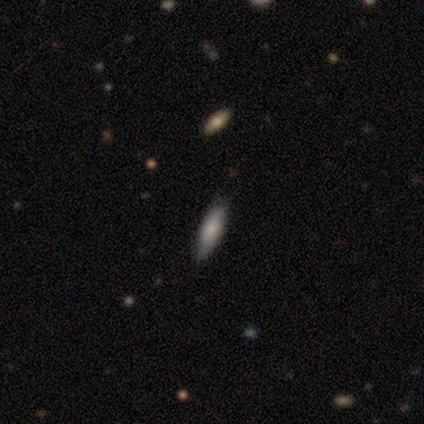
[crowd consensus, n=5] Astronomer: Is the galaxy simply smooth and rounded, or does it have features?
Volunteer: smooth — 100%.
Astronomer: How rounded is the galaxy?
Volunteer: cigar-shaped — 80%.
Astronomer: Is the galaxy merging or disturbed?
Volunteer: none — 100%.